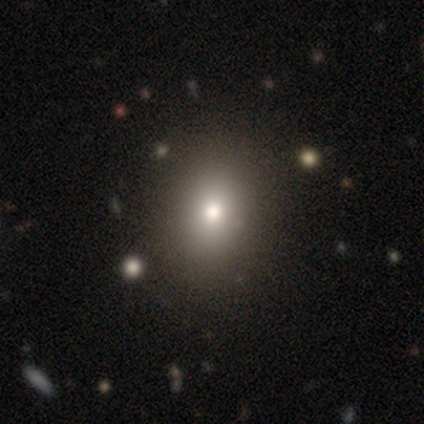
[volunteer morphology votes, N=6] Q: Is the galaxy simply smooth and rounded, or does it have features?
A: smooth — 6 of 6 (100%).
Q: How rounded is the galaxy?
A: round — 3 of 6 (50%, tied with in between).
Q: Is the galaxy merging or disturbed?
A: none — 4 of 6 (67%).